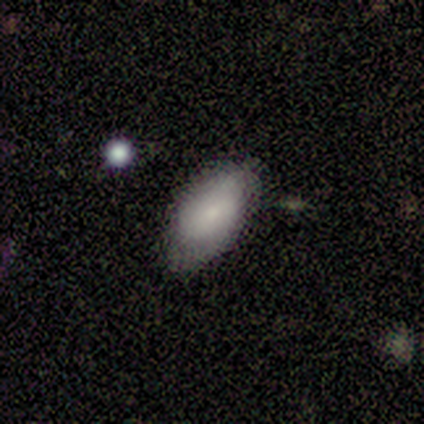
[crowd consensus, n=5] A smooth galaxy with no disk features (80%) that is in between round and cigar-shaped (100%).

Vote fractions:
- Smooth or featured? smooth: 80% / featured or disk: 20% / star or artifact: 0%
- How rounded? in between: 100% / round: 0% / cigar-shaped: 0%
- Merging? none: 40% (tied) / minor disturbance: 40% (tied) / merger: 20% / major disturbance: 0%